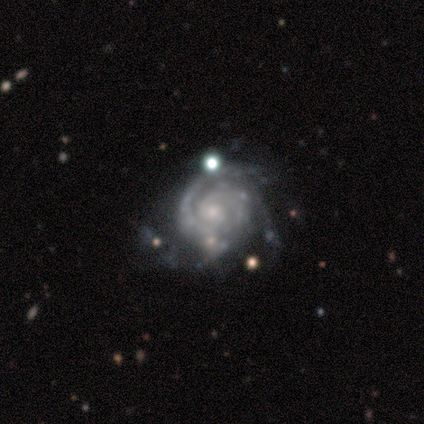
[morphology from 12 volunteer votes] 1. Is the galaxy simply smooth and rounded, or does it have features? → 100% featured or disk, 0% smooth, 0% star or artifact.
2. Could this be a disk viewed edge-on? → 100% no, 0% yes.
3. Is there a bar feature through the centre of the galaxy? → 92% no, 8% weak, 0% strong.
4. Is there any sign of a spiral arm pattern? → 100% yes, 0% no.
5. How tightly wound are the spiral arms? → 83% tight, 17% medium, 0% loose.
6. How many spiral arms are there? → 33% 2 (tied), 33% 3 (tied), 17% can't tell, 8% 4, 8% more than 4, 0% 1.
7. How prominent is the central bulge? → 50% small, 33% moderate, 8% large, 8% none, 0% dominant.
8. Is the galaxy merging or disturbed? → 58% none, 33% minor disturbance, 8% major disturbance, 0% merger.